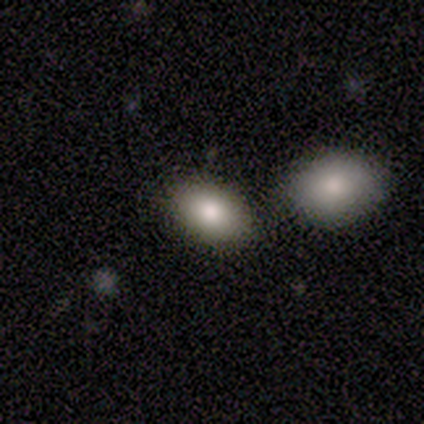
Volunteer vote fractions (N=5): Morphology: type=smooth (100%); roundness=in between (60%); merging=none (60%).